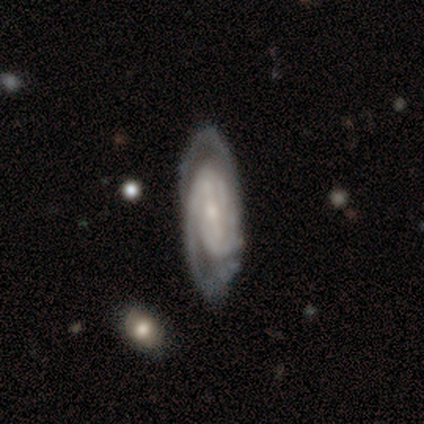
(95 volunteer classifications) smooth-or-featured: featured or disk: 91% | smooth: 5% | star or artifact: 4%
  disk-edge-on: no: 93% | yes: 7%
    bar: strong: 49% | weak: 32% | no: 19%
    has-spiral-arms: yes: 98% | no: 2%
      spiral-winding: tight: 62% | medium: 32% | loose: 6%
      spiral-arm-count: 2: 41% | can't tell: 33% | 3: 19% | 4: 5% | more than 4: 1% | 1: 0%
    bulge-size: small: 72% | moderate: 15% | none: 10% | large: 2% | dominant: 0%
  merging: none: 67% | minor disturbance: 22% | major disturbance: 8% | merger: 3%